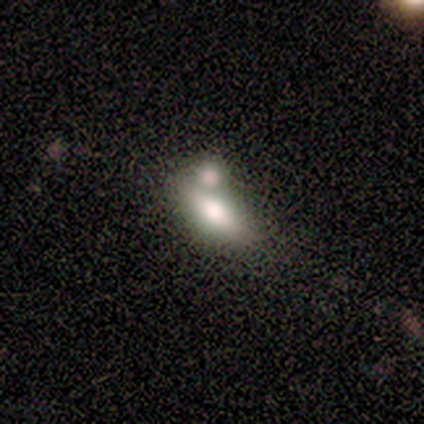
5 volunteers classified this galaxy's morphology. This is clearly a smooth galaxy (80%). How rounded: likely in between (75%). Merging: possibly none (50%).